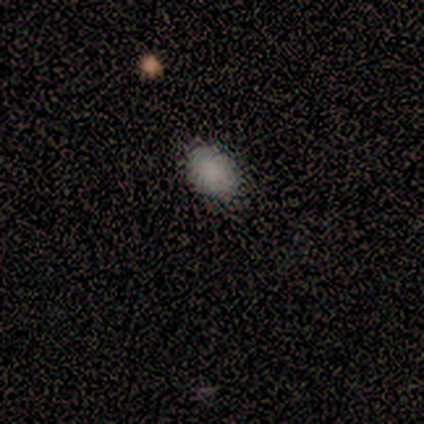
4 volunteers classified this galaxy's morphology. Consensus on every question: smooth or featured — smooth (100%); how rounded — in between (100%); merging — none (100%).